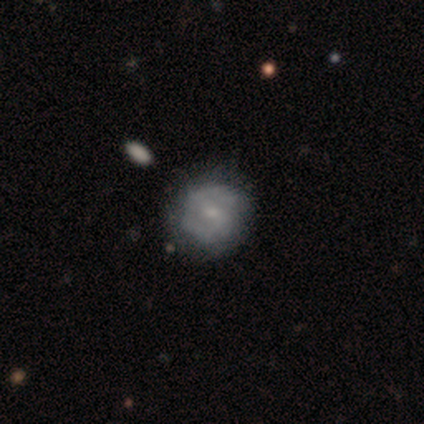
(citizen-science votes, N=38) This is possibly a featured or disk galaxy (53%). It is clearly not viewed edge-on (100%). Bar: possibly no (55%). Spiral arm pattern: likely yes (65%). Spiral arm count: likely 2 (62%). Spiral winding: possibly tight (54%). Central bulge: likely small (75%). Merging: clearly none (84%).